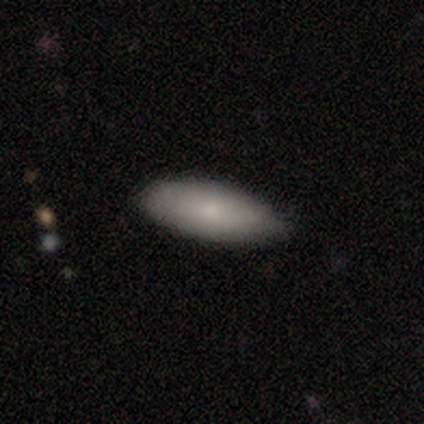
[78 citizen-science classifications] A smooth galaxy with no disk features (79%) that is in between round and cigar-shaped (89%).

Vote fractions:
- Smooth or featured? smooth: 79% / featured or disk: 18% / star or artifact: 3%
- How rounded? in between: 89% / cigar-shaped: 10% / round: 2%
- Merging? none: 39% / minor disturbance: 9% / major disturbance: 1% / merger: 1%